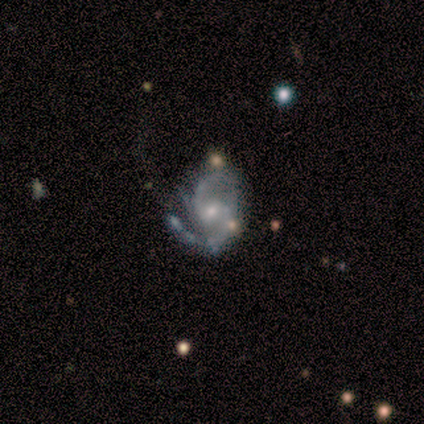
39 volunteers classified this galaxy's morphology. This is clearly a featured or disk galaxy (92%). It is clearly not viewed edge-on (97%). Bar: possibly no (57%). Spiral arm pattern: clearly yes (100%). Spiral arm count: likely 2 (77%). Spiral winding: possibly medium (54%). Central bulge: likely small (60%). Merging: possibly none (57%).